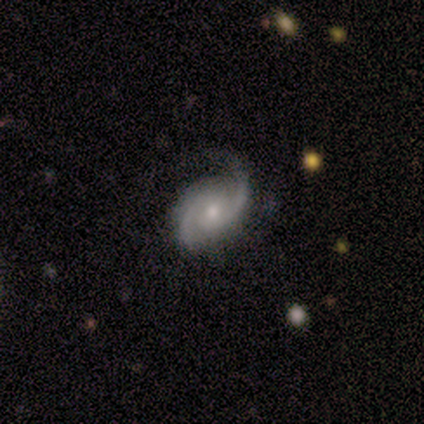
Smooth or featured? featured or disk (100%)
Edge-on disk? no (100%)
Bar? no (80%)
Spiral arms? yes (100%)
Spiral winding? tight (40%, tied with medium)
Spiral arm count? 2 (100%)
Bulge size? moderate (60%)
Merging? none (60%)